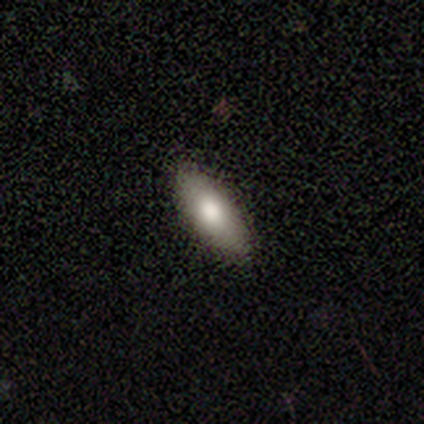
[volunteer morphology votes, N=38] smooth-or-featured: smooth: 76% | featured or disk: 13% | star or artifact: 11%
  how-rounded: in between: 66% | cigar-shaped: 31% | round: 3%
  merging: none: 97% | minor disturbance: 3% | major disturbance: 0% | merger: 0%